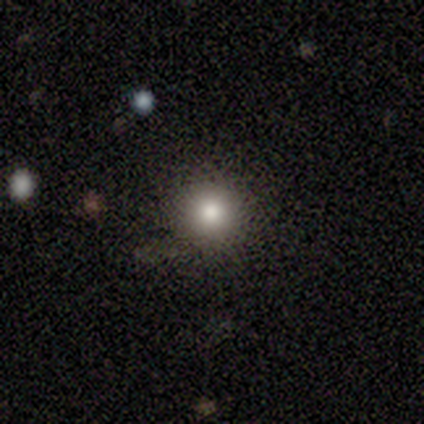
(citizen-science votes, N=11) Smooth or featured?
  - smooth: 82% *
  - featured or disk: 9%
  - star or artifact: 9%
How rounded?
  - round: 100% *
  - in between: 0%
  - cigar-shaped: 0%
Merging?
  - none: 90% *
  - minor disturbance: 10%
  - major disturbance: 0%
  - merger: 0%